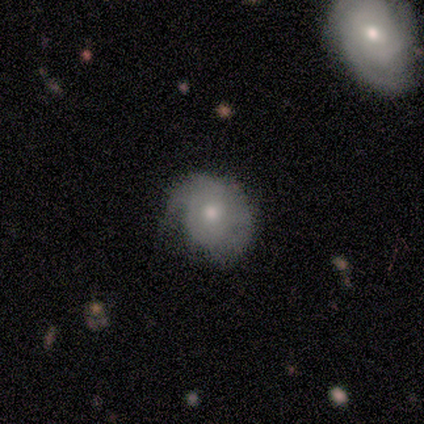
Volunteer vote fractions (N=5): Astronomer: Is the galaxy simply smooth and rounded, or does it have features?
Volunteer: smooth — 60% (runner-up: featured or disk, 40%).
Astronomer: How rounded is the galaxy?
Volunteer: round — 67%.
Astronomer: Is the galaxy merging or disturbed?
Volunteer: minor disturbance — 80%.